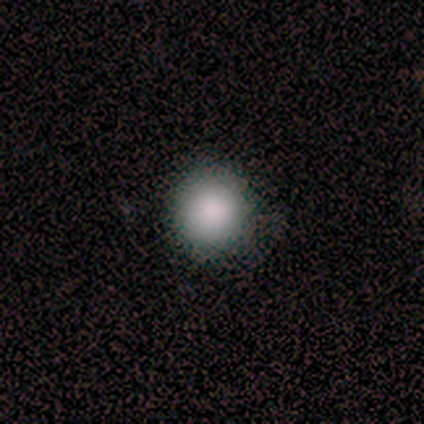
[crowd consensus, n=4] A smooth galaxy with no disk features (100%) that is round (100%). Merging: none (100%).